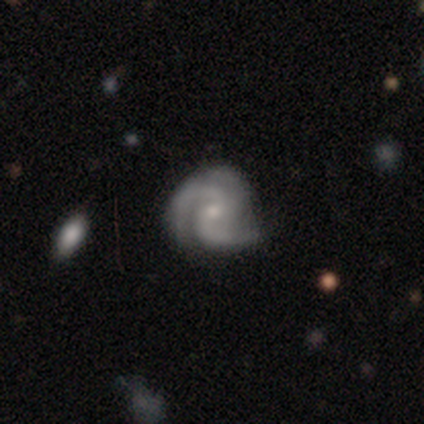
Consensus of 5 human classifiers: Smooth or featured? featured or disk (100%)
Edge-on disk? no (100%)
Bar? no (80%)
Spiral arms? yes (100%)
Spiral winding? tight (80%)
Spiral arm count? 3 (80%)
Bulge size? small (80%)
Merging? none (80%)